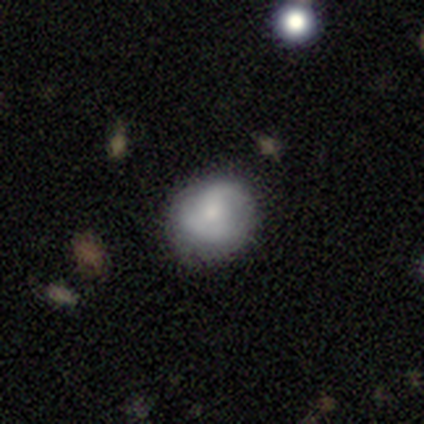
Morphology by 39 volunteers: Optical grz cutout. It shows a smooth galaxy with no disk features (64%) that is round (88%). Merging: none (65%).